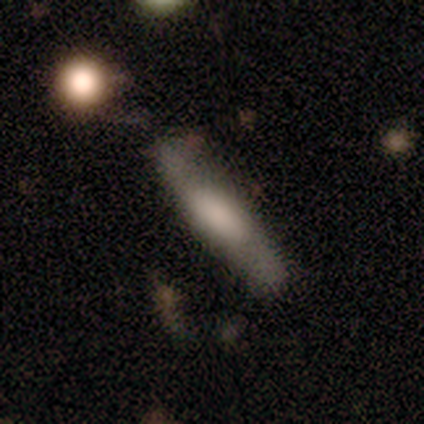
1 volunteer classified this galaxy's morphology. type=smooth (100%); roundness=cigar-shaped (100%); merging=none (100%).